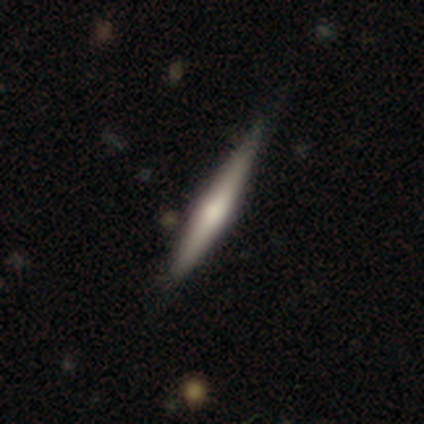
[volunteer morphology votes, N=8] Smooth or featured? 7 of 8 (88%) said featured or disk. Edge-on disk? 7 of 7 (100%) said yes. Edge-on bulge? 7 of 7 (100%) said rounded. Merging? 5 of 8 (62%) said none.